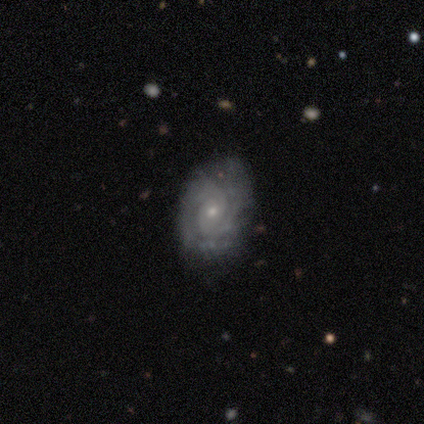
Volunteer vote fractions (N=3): Morphology: type=featured or disk (67%); edge-on=no (100%); bar=no (100%); spiral arms=yes (50%, tied with no); winding=tight (100%); arm count=4 (100%); bulge=small (50%, tied with none); merging=none (100%).